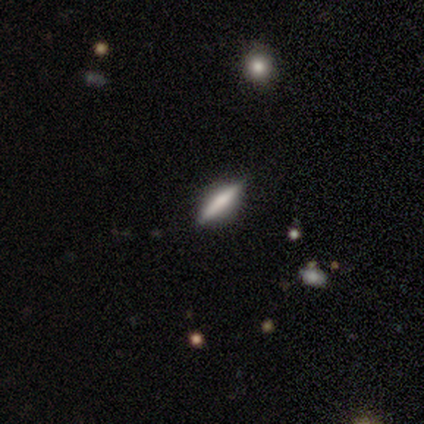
Smooth or featured? smooth (60%)
How rounded? cigar-shaped (100%)
Merging? none (80%)